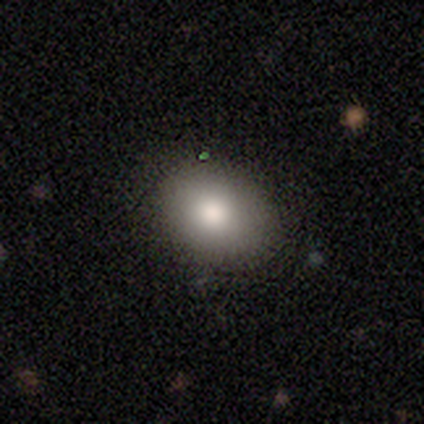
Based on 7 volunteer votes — Q: Smooth or featured?
A: smooth (86%); runner-up: star or artifact (14%)
Q: How rounded?
A: in between (67%); runner-up: round (33%)
Q: Merging?
A: none (100%)